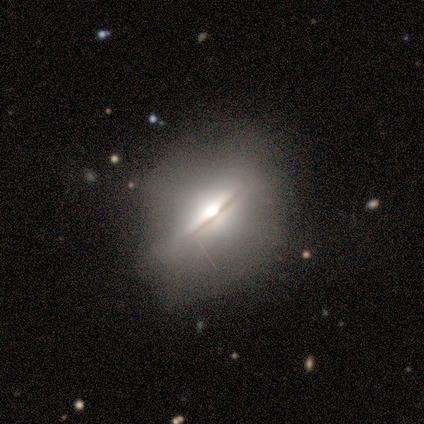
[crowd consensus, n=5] featured or disk 80%, smooth 20%, star or artifact 0%. Down the decision tree: edge-on disk — yes (75%); edge-on bulge — rounded (100%); merging — none (60%).